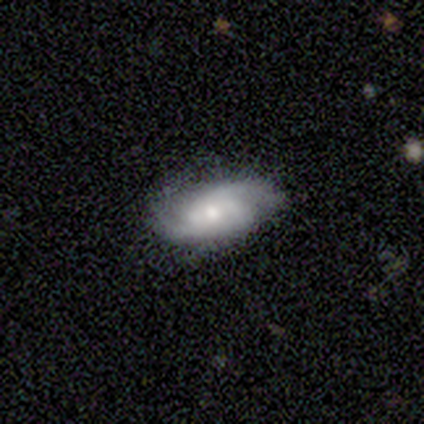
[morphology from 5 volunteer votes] Smooth or featured? featured or disk (80%)
Edge-on disk? no (100%)
Bar? weak (75%)
Spiral arms? yes (100%)
Spiral winding? tight (50%, tied with medium)
Spiral arm count? 2 (75%)
Bulge size? moderate (75%)
Merging? none (80%)